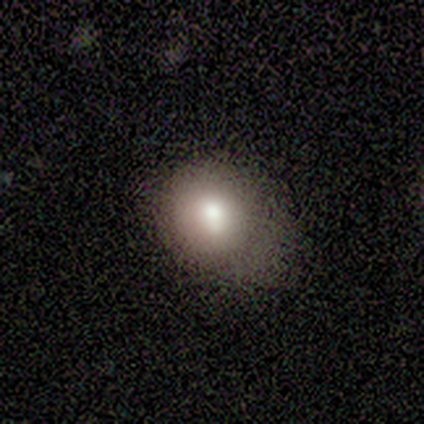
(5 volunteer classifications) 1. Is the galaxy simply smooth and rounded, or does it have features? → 80% smooth, 20% star or artifact, 0% featured or disk.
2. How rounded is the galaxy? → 100% round, 0% in between, 0% cigar-shaped.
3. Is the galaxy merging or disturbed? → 75% minor disturbance, 25% none, 0% major disturbance, 0% merger.